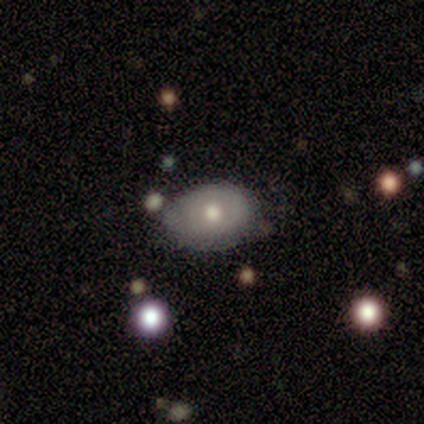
smooth_or_featured: smooth (p=0.50) [alt: star or artifact p=0.33]
how_rounded: round (p=0.67) [alt: in between p=0.33]
merging: none (p=0.50) [tied with: minor disturbance p=0.50]